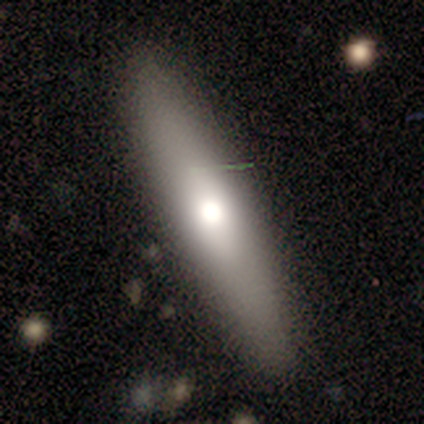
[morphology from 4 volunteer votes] Smooth or featured? featured or disk (75%)
Edge-on disk? yes (100%)
Edge-on bulge? rounded (67%)
Merging? none (100%)